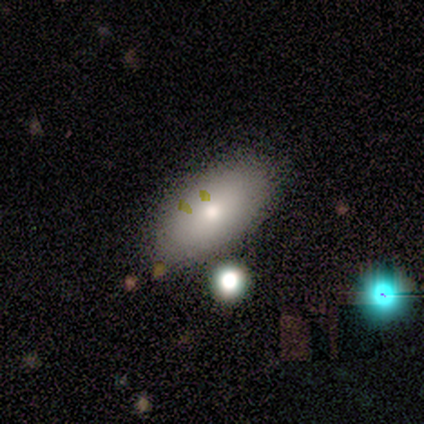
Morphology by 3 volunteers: Smooth or featured?
  - smooth: 67% *
  - featured or disk: 33%
  - star or artifact: 0%
How rounded?
  - in between: 100% *
  - round: 0%
  - cigar-shaped: 0%
Merging?
  - none: 100% *
  - minor disturbance: 0%
  - major disturbance: 0%
  - merger: 0%